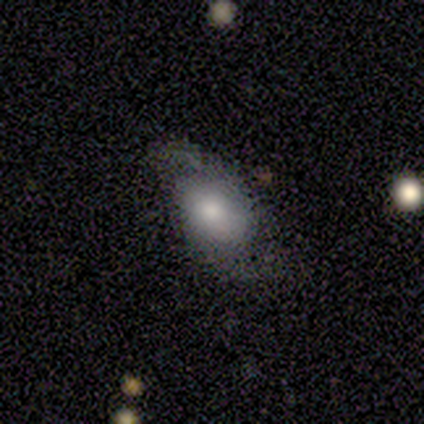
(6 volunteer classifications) This appears to be a smooth galaxy with no disk features (67%) that is in between round and cigar-shaped (100%). Merging: none (50%).